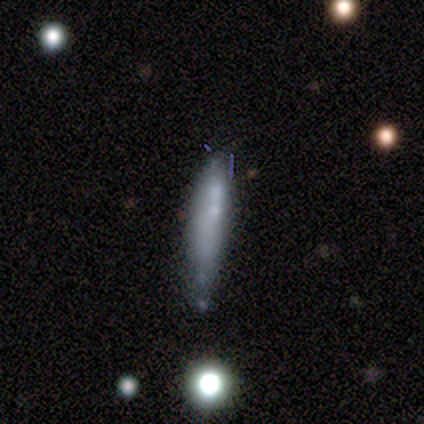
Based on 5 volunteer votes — A smooth galaxy with no disk features (40%, tied with featured or disk) that is cigar-shaped (100%). Merging: major disturbance (50%).